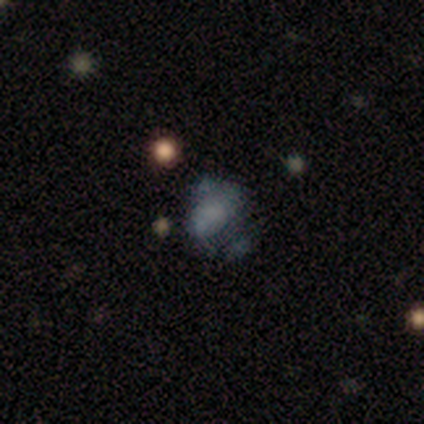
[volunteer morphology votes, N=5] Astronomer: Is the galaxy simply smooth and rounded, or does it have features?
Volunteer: smooth — 80%.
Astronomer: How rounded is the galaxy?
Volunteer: in between — 75%.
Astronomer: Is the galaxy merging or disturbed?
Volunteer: major disturbance — 60%.